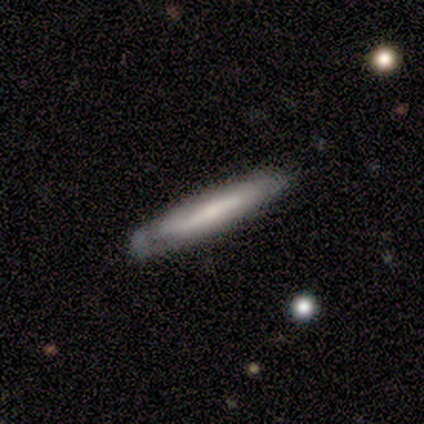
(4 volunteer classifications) Overall: smooth (50%, tied with featured or disk). How rounded: cigar-shaped (100%). Merging: none (75%).